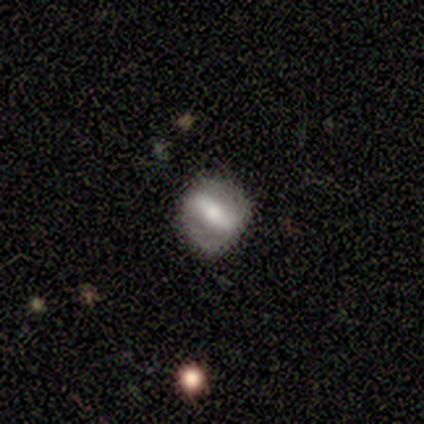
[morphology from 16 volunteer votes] Overall: featured or disk (75%). Edge-on disk: no (100%). Bar: strong (58%; weak 25%). Spiral arms: no (75%). Bulge size: small (42%; moderate 33%). Merging: none (81%).